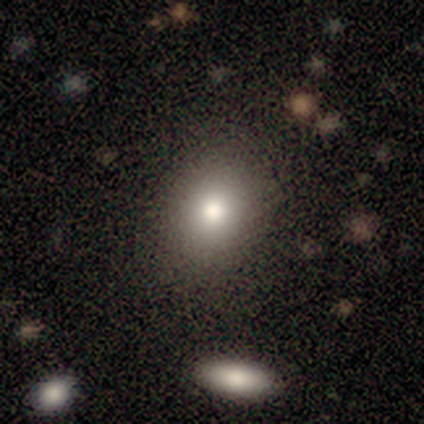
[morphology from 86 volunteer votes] A smooth galaxy with no disk features (79%) that is round (63%).

Vote fractions:
- Smooth or featured? smooth: 79% / star or artifact: 12% / featured or disk: 9%
- How rounded? round: 63% / in between: 37% / cigar-shaped: 0%
- Merging? none: 89% / minor disturbance: 8% / major disturbance: 1% / merger: 1%